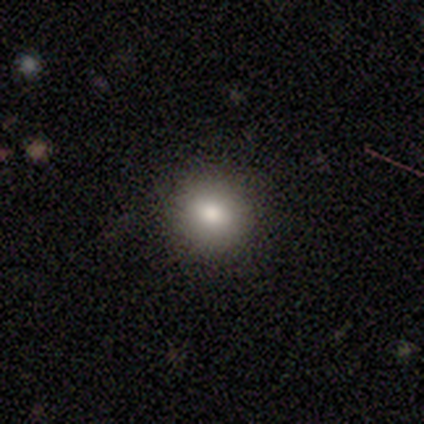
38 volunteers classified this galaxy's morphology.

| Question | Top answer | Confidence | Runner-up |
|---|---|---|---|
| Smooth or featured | smooth | 68% | star or artifact (24%) |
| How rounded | round | 92% | in between (8%) |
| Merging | none | 83% | minor disturbance (10%) |